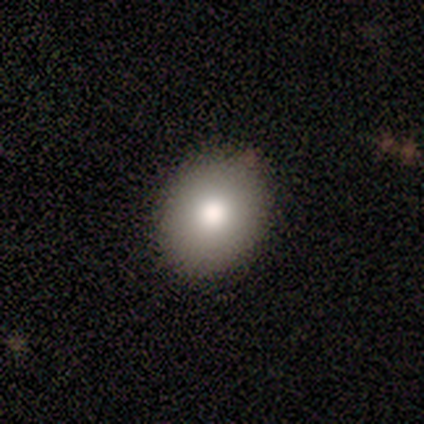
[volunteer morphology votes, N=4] This appears to be a smooth galaxy with no disk features (100%) that is in between round and cigar-shaped (75%). Merging: none (100%).